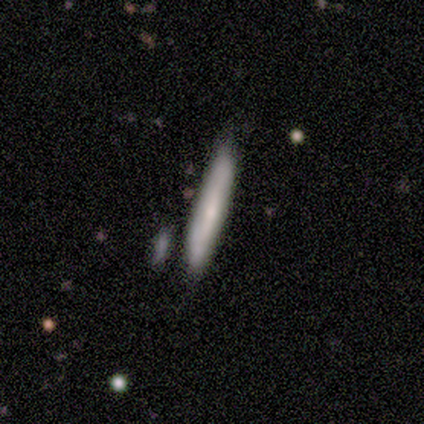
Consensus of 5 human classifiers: Smooth or featured? 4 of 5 (80%) said smooth. How rounded? 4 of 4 (100%) said cigar-shaped. Merging? 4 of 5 (80%) said none.